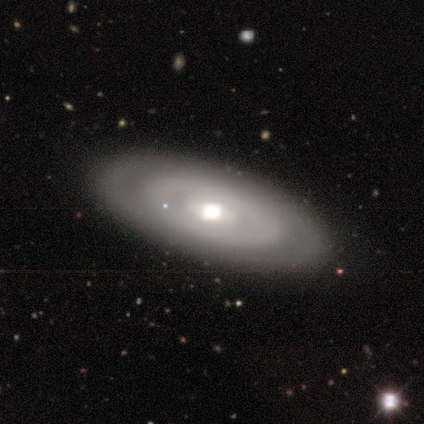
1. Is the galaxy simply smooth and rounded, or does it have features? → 72% featured or disk, 28% smooth, 0% star or artifact.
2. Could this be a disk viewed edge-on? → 93% no, 7% yes.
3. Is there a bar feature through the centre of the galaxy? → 81% no, 11% weak, 7% strong.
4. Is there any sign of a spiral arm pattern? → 93% no, 7% yes.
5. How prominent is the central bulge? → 74% moderate, 11% dominant, 7% large, 7% small, 0% none.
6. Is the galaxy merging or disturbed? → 75% none, 8% minor disturbance, 0% major disturbance, 0% merger.